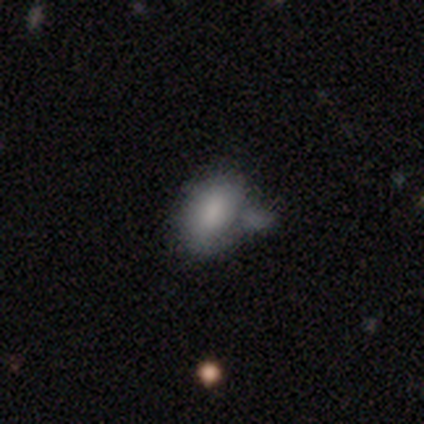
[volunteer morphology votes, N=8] type=smooth (88%); roundness=in between (86%); merging=minor disturbance (43%).